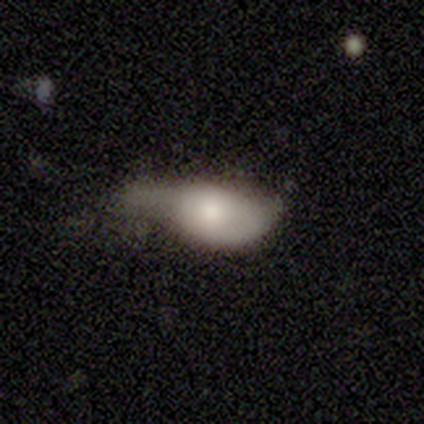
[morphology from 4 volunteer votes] type=smooth (100%); roundness=in between (100%); merging=minor disturbance (75%).